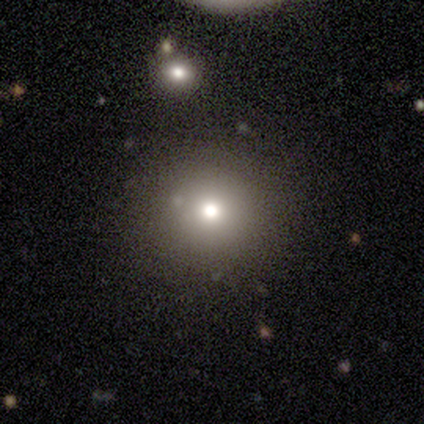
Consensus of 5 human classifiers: A smooth galaxy with no disk features (100%) that is round (60%). Merging: none (60%).